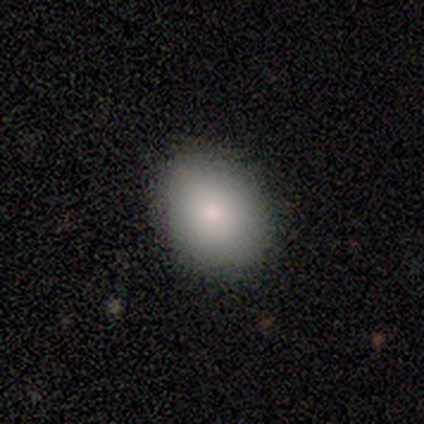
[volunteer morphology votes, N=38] This is clearly a smooth galaxy (84%). How rounded: possibly in between (50%). Merging: clearly none (86%).